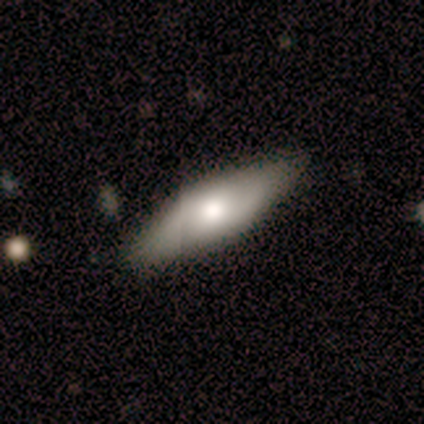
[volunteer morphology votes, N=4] Smooth or featured: smooth — 50% (tied with featured or disk — 50%)
How rounded: in between — 100%
Merging: none — 75% (minor disturbance — 25%)